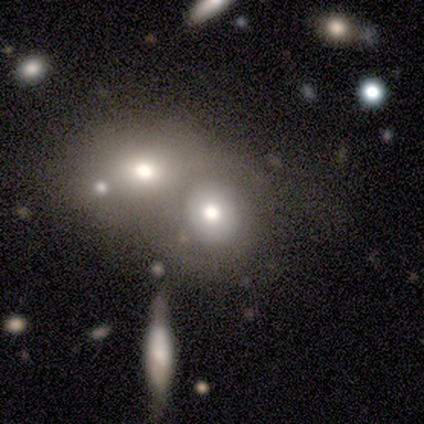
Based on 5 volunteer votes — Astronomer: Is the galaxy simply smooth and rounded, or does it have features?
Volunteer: smooth — 60% (runner-up: featured or disk, 40%).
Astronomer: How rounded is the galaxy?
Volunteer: round — 100%.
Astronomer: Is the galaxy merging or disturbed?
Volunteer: merger — 60%.